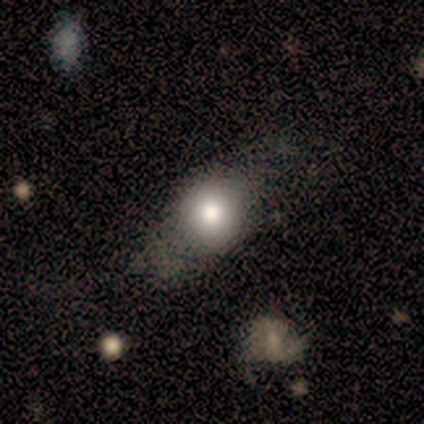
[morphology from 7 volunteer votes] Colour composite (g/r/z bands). It shows a smooth galaxy with no disk features (71%) that is round (80%). Merging: none (83%).